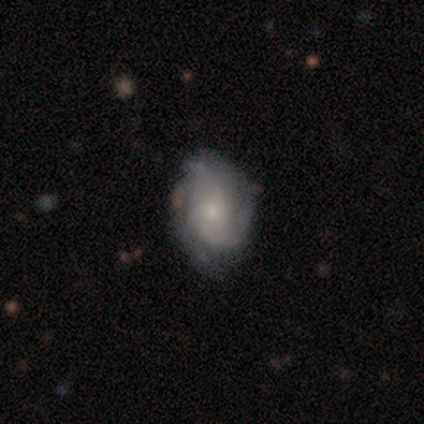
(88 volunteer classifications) Overall: featured or disk (80%). Edge-on disk: no (99%). Bar: no (83%). Spiral arms: yes (87%). Spiral arm count: can't tell (38%; 3 27%). Spiral winding: tight (67%; medium 27%). Bulge size: small (48%; moderate 41%). Merging: none (63%; minor disturbance 29%).